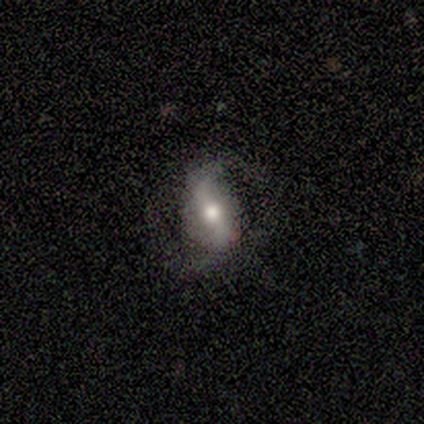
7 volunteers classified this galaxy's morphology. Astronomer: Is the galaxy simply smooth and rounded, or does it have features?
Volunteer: featured or disk — 86%.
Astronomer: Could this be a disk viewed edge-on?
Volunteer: no — 100%.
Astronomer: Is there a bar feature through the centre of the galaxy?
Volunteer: weak — 50% (runner-up: strong, 33%).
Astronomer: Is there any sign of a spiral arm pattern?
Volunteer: yes — 100%.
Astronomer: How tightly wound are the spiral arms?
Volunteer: loose — 50% (runner-up: medium, 33%).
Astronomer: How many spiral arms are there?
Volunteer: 2 — 83%.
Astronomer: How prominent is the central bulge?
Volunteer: moderate — 50% (runner-up: large, 33%).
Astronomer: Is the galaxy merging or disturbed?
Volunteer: none — 86%.